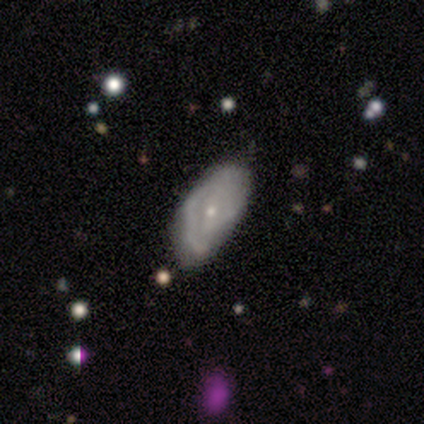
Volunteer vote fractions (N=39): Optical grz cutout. It shows a featured or disk galaxy (67%) with no bar (46%), tight (53%) spiral arms (73%) and a small central bulge (85%). Merging: minor disturbance (34%).